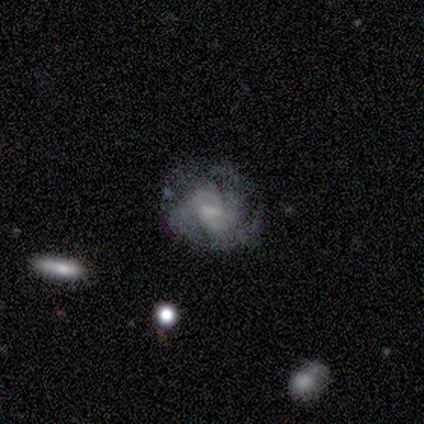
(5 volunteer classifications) Morphology: type=featured or disk (80%); edge-on=no (100%); bar=no (50%); spiral arms=yes (100%); winding=medium (50%); arm count=2 (25%, tied with 3, 4 and can't tell); bulge=moderate (50%); merging=none (75%).